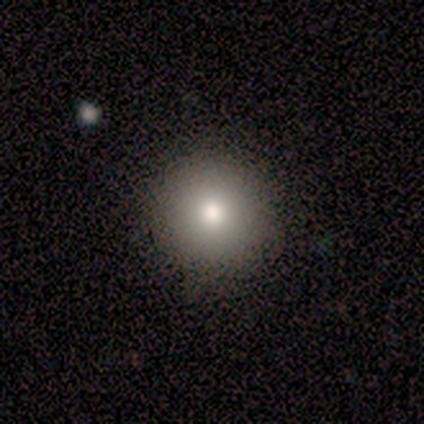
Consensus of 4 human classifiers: smooth_or_featured: smooth (p=1.00)
how_rounded: round (p=1.00)
merging: none (p=0.75) [alt: major disturbance p=0.25]